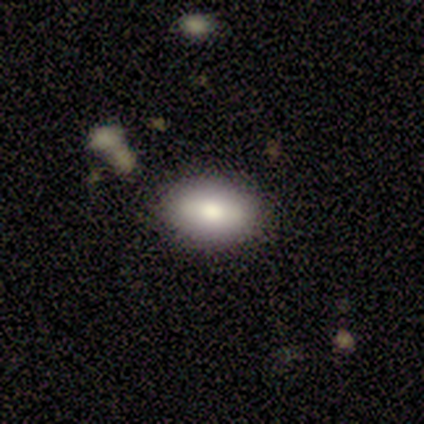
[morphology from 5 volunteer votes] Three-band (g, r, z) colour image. It shows a smooth galaxy with no disk features (100%) that is in between round and cigar-shaped (100%). Merging: none (100%).